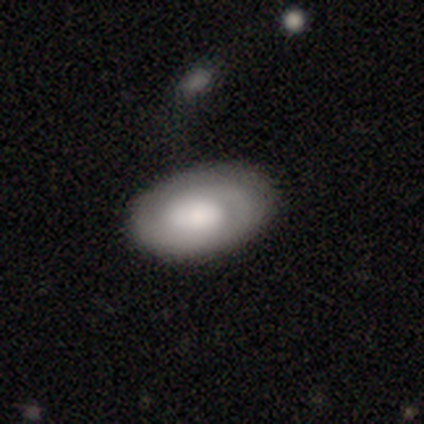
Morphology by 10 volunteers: smooth_or_featured: featured or disk (p=0.60) [alt: smooth p=0.40]
disk_edge_on: no (p=1.00)
bar: no (p=0.67) [alt: strong p=0.17]
has_spiral_arms: yes (p=0.67) [alt: no p=0.33]
spiral_winding: medium (p=0.75) [alt: tight p=0.25]
spiral_arm_count: 2 (p=1.00)
bulge_size: large (p=0.67) [alt: dominant p=0.17]
merging: none (p=0.80) [alt: minor disturbance p=0.20]